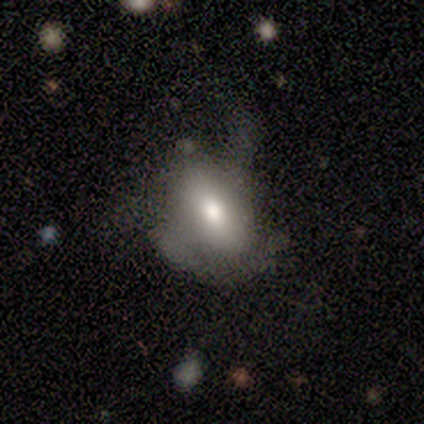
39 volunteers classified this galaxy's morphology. smooth_or_featured: smooth (p=0.51) [alt: featured or disk p=0.33]
how_rounded: in between (p=0.85) [alt: cigar-shaped p=0.15]
merging: major disturbance (p=0.52) [alt: minor disturbance p=0.30]